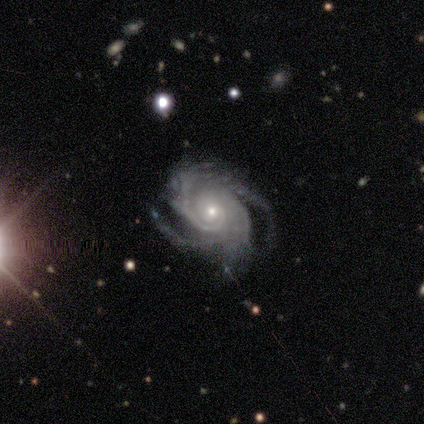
A featured or disk galaxy (100%) with no bar (100%), 3 (40%, tied with 4) tight (80%) spiral arms (100%) and a small central bulge (80%).

Vote fractions:
- Smooth or featured? featured or disk: 100% / smooth: 0% / star or artifact: 0%
- Edge-on disk? no: 100% / yes: 0%
- Bar? no: 100% / strong: 0% / weak: 0%
- Spiral arms? yes: 100% / no: 0%
- Spiral winding? tight: 80% / medium: 20% / loose: 0%
- Spiral arm count? 3: 40% (tied) / 4: 40% (tied) / more than 4: 20% / 1: 0% / 2: 0% / can't tell: 0%
- Bulge size? small: 80% / moderate: 20% / dominant: 0% / large: 0% / none: 0%
- Merging? none: 40% (tied) / minor disturbance: 40% (tied) / major disturbance: 20% / merger: 0%